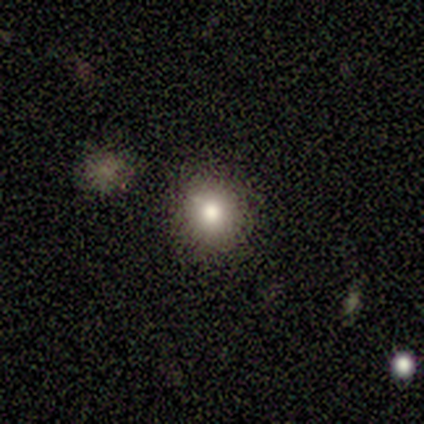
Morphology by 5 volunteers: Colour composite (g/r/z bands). It shows a smooth galaxy with no disk features (100%) that is round (100%). Merging: none (80%).